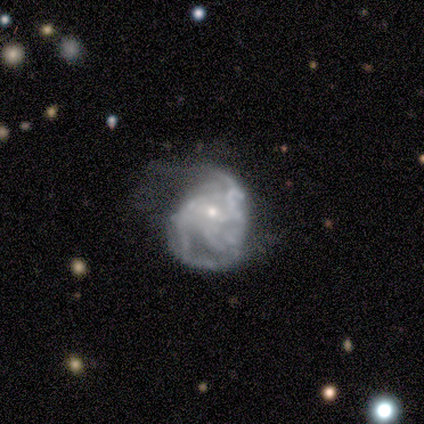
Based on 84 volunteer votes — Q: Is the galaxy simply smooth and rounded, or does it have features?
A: featured or disk — 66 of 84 (79%).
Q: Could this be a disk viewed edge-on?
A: no — 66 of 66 (100%).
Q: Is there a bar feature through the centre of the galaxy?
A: no — 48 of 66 (73%).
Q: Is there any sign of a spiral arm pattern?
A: yes — 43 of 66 (65%).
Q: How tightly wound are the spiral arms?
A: medium — 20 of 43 (47%).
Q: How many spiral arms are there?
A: can't tell — 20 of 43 (47%).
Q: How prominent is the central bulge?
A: small — 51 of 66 (77%).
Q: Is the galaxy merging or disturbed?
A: major disturbance — 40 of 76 (53%).